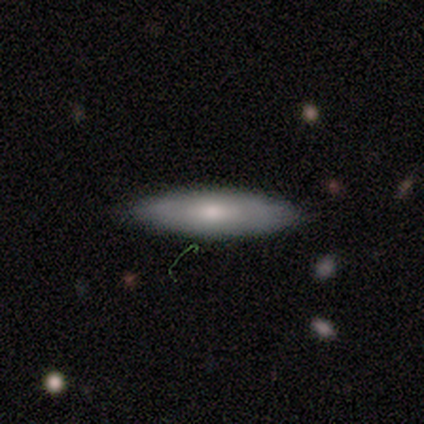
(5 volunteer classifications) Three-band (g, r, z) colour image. It shows a smooth galaxy with no disk features (60%) that is cigar-shaped (67%). Merging: none (80%).